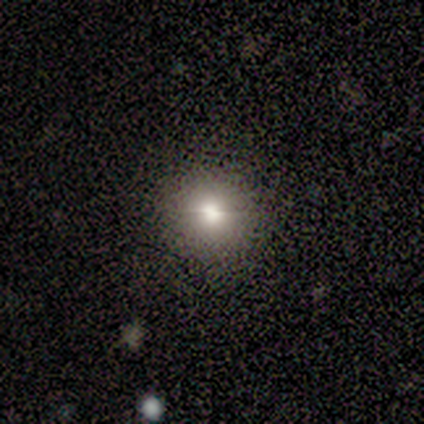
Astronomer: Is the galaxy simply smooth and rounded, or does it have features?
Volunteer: smooth — 60% (runner-up: star or artifact, 40%).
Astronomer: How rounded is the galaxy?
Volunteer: round — 100%.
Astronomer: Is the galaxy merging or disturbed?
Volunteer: none — 100%.